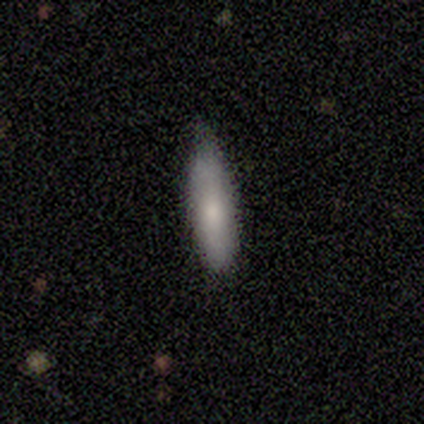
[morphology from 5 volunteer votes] A smooth galaxy with no disk features (100%) that is cigar-shaped (60%).

Vote fractions:
- Smooth or featured? smooth: 100% / featured or disk: 0% / star or artifact: 0%
- How rounded? cigar-shaped: 60% / in between: 40% / round: 0%
- Merging? none: 100% / minor disturbance: 0% / major disturbance: 0% / merger: 0%